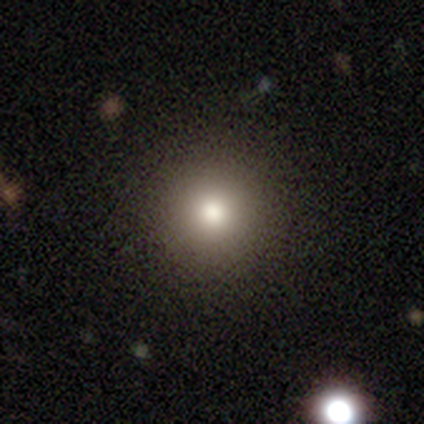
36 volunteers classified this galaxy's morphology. Smooth or featured? smooth (72%)
How rounded? round (100%)
Merging? none (100%)